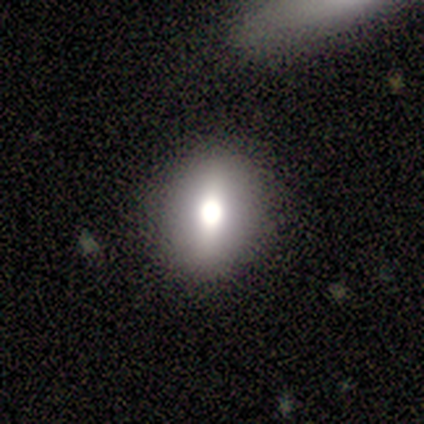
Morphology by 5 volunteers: Smooth or featured: smooth — 60% (featured or disk — 40%)
How rounded: round — 67% (in between — 33%)
Merging: none — 80% (minor disturbance — 20%)